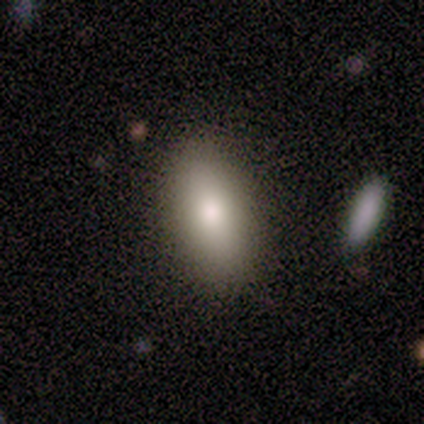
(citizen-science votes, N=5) Morphology: type=smooth (80%); roundness=in between (50%, tied with cigar-shaped); merging=none (60%).